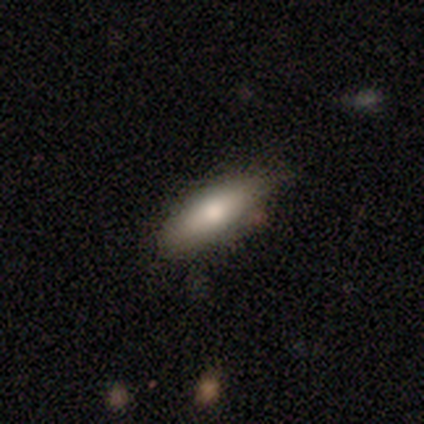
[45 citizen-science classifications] Volunteers were most divided on "how rounded": cigar-shaped: 54%, in between: 46%, round: 0%. More confident: smooth or featured — smooth (78%); merging — none (67%).